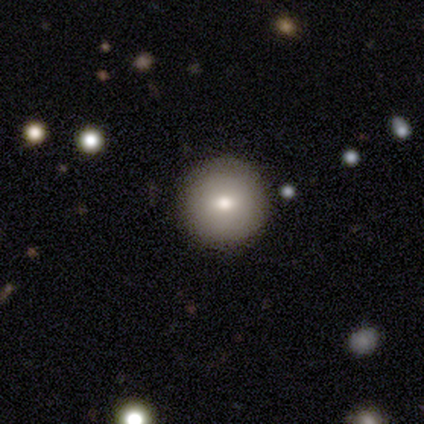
Smooth or featured?
  - smooth: 100% *
  - featured or disk: 0%
  - star or artifact: 0%
How rounded?
  - round: 100% *
  - in between: 0%
  - cigar-shaped: 0%
Merging?
  - none: 100% *
  - minor disturbance: 0%
  - major disturbance: 0%
  - merger: 0%